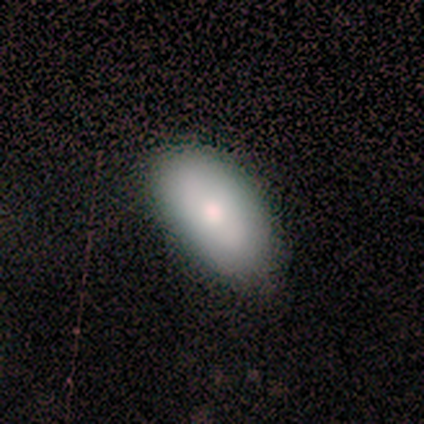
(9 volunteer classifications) A smooth galaxy with no disk features (89%) that is in between round and cigar-shaped (100%). Merging: none (78%).